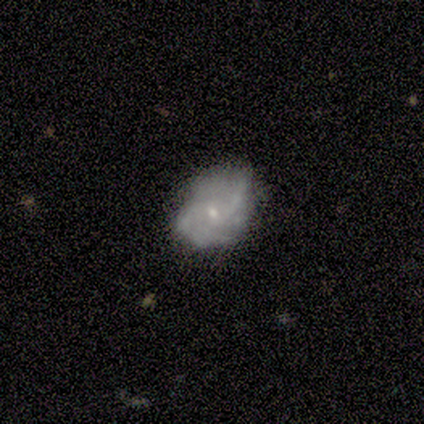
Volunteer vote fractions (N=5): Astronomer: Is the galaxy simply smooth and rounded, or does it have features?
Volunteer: featured or disk — 100%.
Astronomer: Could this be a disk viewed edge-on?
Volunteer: no — 100%.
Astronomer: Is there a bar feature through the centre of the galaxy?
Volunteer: no — 80%.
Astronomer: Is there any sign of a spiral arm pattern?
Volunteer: yes — 60% (runner-up: no, 40%).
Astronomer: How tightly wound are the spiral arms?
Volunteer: loose — 67%.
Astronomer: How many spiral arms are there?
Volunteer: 2 — 67%.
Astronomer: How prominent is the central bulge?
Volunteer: small — 80%.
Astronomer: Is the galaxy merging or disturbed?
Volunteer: minor disturbance — 60% (runner-up: none, 40%).